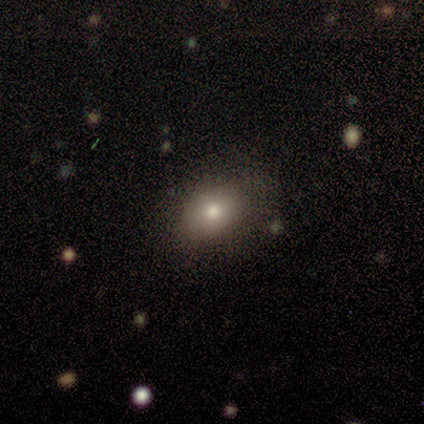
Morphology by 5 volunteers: Smooth or featured: smooth — 80% (star or artifact — 20%)
How rounded: in between — 75% (round — 25%)
Merging: none — 75% (minor disturbance — 25%)